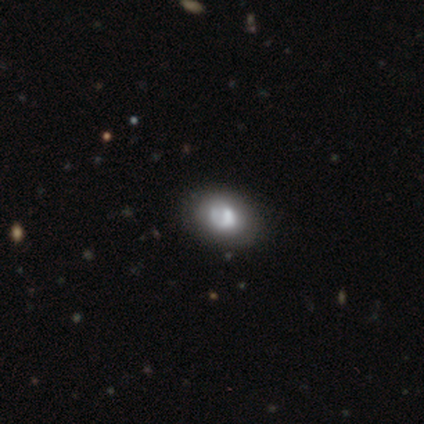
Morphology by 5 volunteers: Smooth or featured: smooth — 80% (featured or disk — 20%)
How rounded: in between — 75% (round — 25%)
Merging: none — 80% (minor disturbance — 20%)